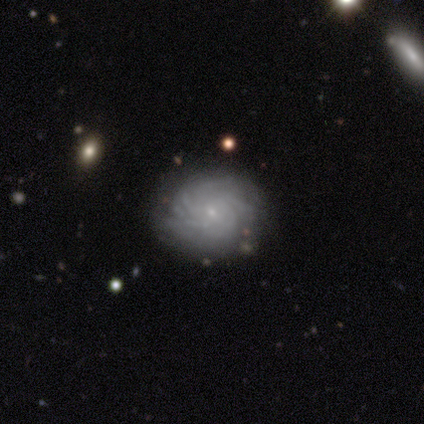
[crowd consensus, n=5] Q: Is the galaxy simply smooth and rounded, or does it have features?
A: featured or disk — 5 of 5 (100%).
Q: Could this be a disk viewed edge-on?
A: no — 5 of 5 (100%).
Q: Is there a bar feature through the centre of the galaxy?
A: no — 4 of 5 (80%).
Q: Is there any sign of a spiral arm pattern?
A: yes — 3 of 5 (60%).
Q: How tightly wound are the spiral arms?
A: tight — 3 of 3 (100%).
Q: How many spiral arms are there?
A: more than 4 — 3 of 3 (100%).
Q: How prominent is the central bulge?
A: small — 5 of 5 (100%).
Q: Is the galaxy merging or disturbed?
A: none — 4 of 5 (80%).